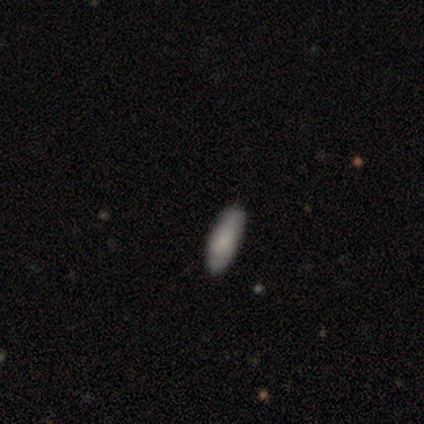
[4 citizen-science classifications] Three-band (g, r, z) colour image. It shows a smooth galaxy with no disk features (75%) that is cigar-shaped (67%). Merging: none (75%).